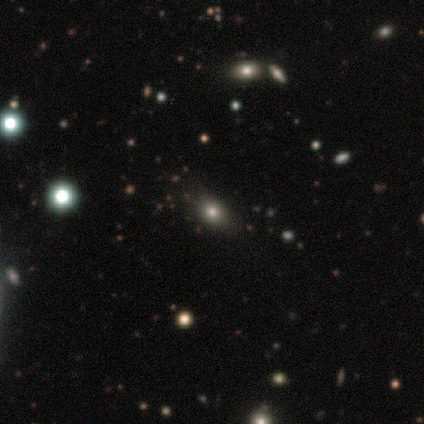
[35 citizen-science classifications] Smooth or featured?
  - smooth: 63% *
  - star or artifact: 29%
  - featured or disk: 9%
How rounded?
  - round: 50% * (tied)
  - in between: 50% * (tied)
  - cigar-shaped: 0%
Merging?
  - none: 76% *
  - minor disturbance: 12%
  - major disturbance: 8%
  - merger: 4%